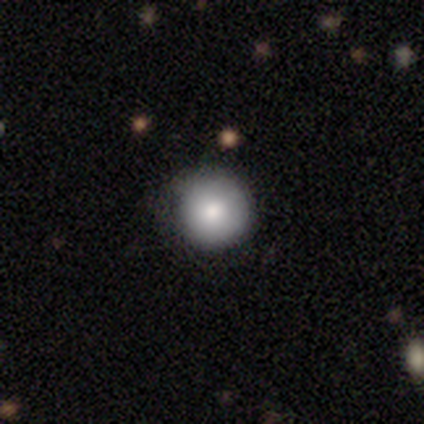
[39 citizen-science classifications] Smooth or featured? smooth (77%)
How rounded? round (100%)
Merging? none (77%)